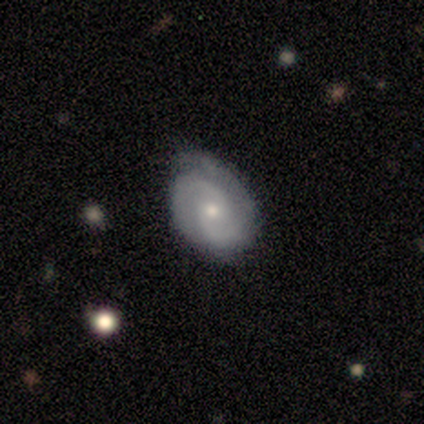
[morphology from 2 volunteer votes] Smooth or featured? featured or disk (100%)
Edge-on disk? no (100%)
Bar? weak (100%)
Spiral arms? yes (50%, tied with no)
Spiral winding? medium (100%)
Spiral arm count? 2 (100%)
Bulge size? moderate (50%, tied with small)
Merging? none (50%, tied with minor disturbance)